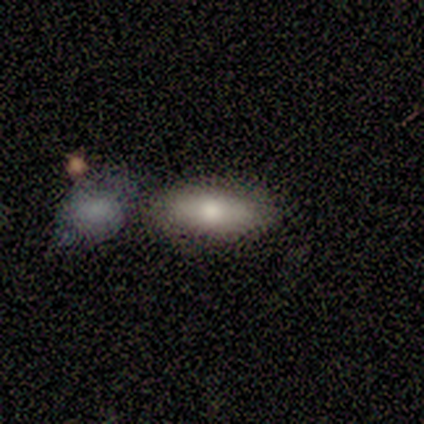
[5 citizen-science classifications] smooth-or-featured: smooth: 60% | featured or disk: 40% | star or artifact: 0%
  how-rounded: cigar-shaped: 67% | in between: 33% | round: 0%
  merging: none: 40% (tied) | merger: 40% (tied) | minor disturbance: 20% | major disturbance: 0%